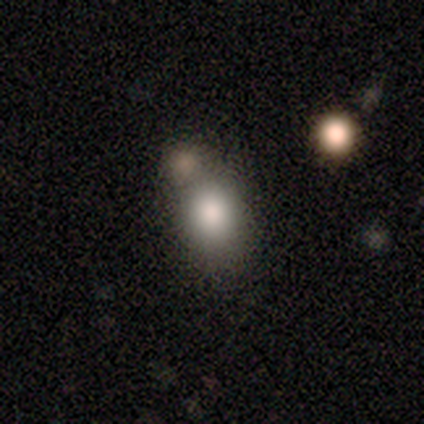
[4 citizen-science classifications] This is clearly a smooth galaxy (100%). How rounded: likely in between (75%). Merging: possibly minor disturbance (50%).